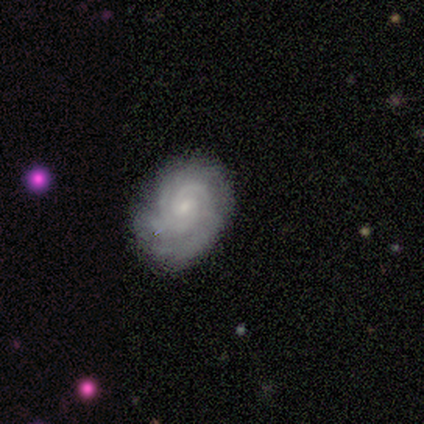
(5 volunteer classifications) featured or disk 60%, smooth 20%, star or artifact 20%. Down the decision tree: edge-on disk — no (100%); bar — no (100%); spiral arms — yes (100%); spiral arm count — can't tell (67%); spiral winding — tight (100%); bulge size — small (67%); merging — none (50%, tied with minor disturbance).